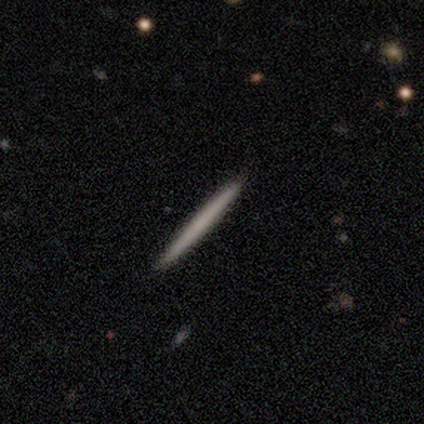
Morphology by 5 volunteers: Volunteers were most divided on "smooth or featured": smooth: 60%, featured or disk: 40%, star or artifact: 0%. More confident: how rounded — cigar-shaped (100%); merging — none (100%).